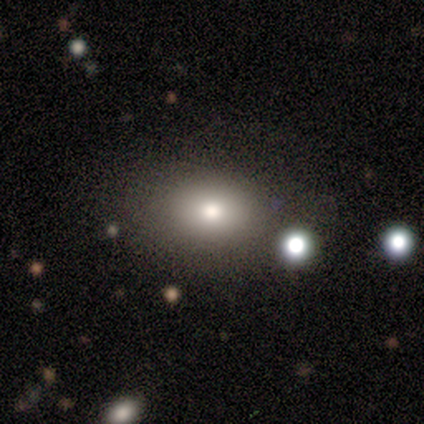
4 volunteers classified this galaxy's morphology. A smooth galaxy with no disk features (50%, tied with featured or disk) that is round (50%, tied with in between). Merging: none (100%).